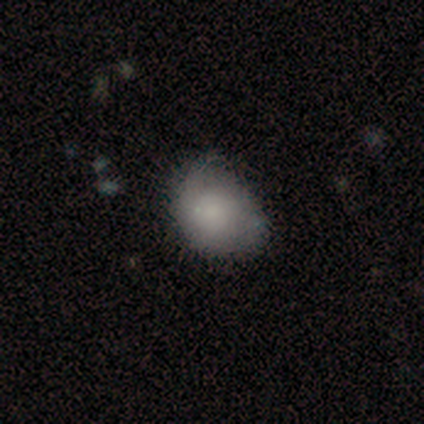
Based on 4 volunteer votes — A smooth galaxy with no disk features (75%) that is round (67%). Merging: none (50%, tied with minor disturbance).